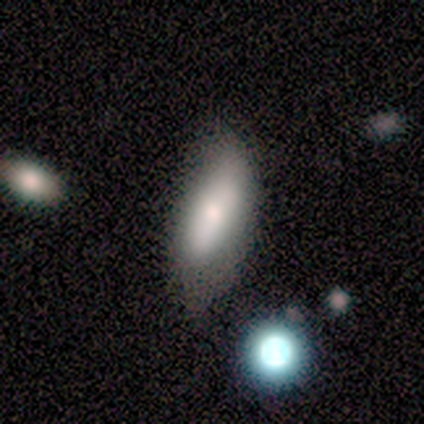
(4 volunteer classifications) smooth_or_featured: smooth (p=0.50) [tied with: featured or disk p=0.50]
how_rounded: in between (p=0.50) [tied with: cigar-shaped p=0.50]
merging: none (p=0.50) [tied with: minor disturbance p=0.50]